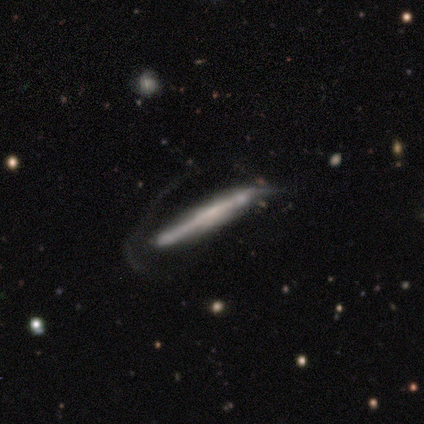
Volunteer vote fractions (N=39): smooth-or-featured: featured or disk: 64% | smooth: 31% | star or artifact: 5%
  disk-edge-on: yes: 92% | no: 8%
    edge-on-bulge: none: 65% | boxy: 22% | rounded: 13%
  merging: none: 51% | major disturbance: 38% | minor disturbance: 11% | merger: 0%